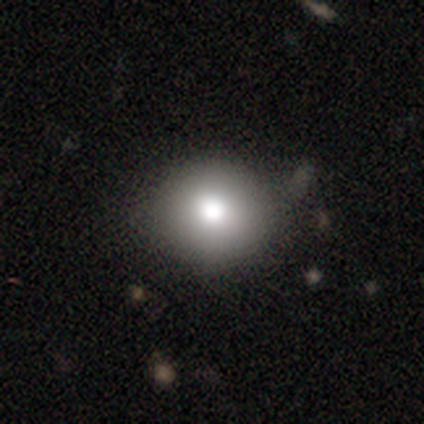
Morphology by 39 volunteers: smooth_or_featured: smooth (p=0.79) [alt: featured or disk p=0.15]
how_rounded: round (p=0.94) [alt: in between p=0.06]
merging: none (p=0.84) [alt: minor disturbance p=0.14]